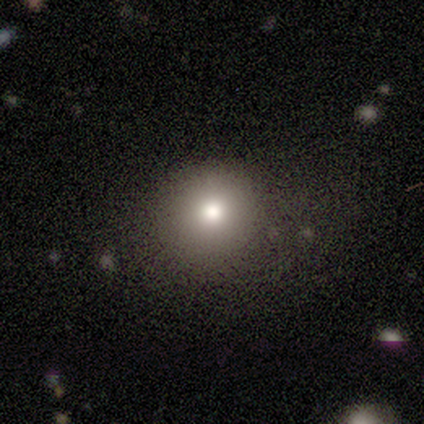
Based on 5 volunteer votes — Smooth or featured: smooth — 80% (star or artifact — 20%)
How rounded: round — 75% (in between — 25%)
Merging: none — 100%